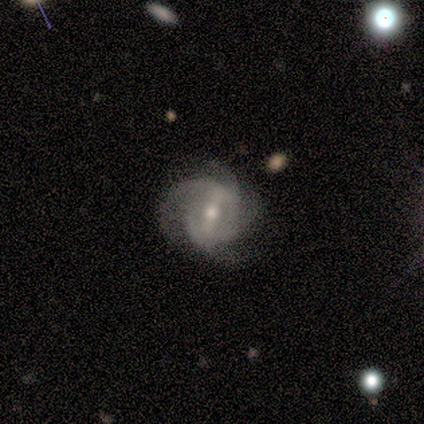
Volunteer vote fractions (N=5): This is clearly a featured or disk galaxy (80%). It is clearly not viewed edge-on (100%). Bar: possibly strong (50%). Spiral arm pattern: clearly yes (100%). Spiral arm count: likely 4 (75%). Spiral winding: possibly tight (50%). Central bulge: likely moderate (75%). Merging: clearly none (80%).